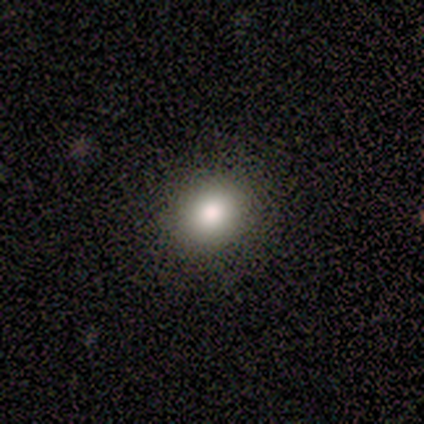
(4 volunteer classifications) Smooth or featured?
  - featured or disk: 75% *
  - smooth: 25%
  - star or artifact: 0%
Edge-on disk?
  - no: 100% *
  - yes: 0%
Bar?
  - no: 67% *
  - strong: 33%
  - weak: 0%
Spiral arms?
  - no: 67% *
  - yes: 33%
Bulge size?
  - dominant: 33% * (tied)
  - moderate: 33% * (tied)
  - small: 33% * (tied)
  - large: 0%
  - none: 0%
Merging?
  - none: 100% *
  - minor disturbance: 0%
  - major disturbance: 0%
  - merger: 0%